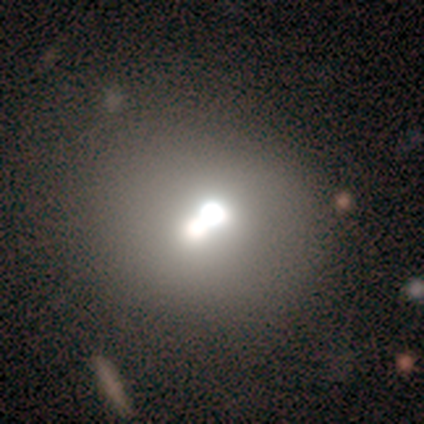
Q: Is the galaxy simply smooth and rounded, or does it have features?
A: smooth — 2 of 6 (33%, tied with featured or disk and star or artifact).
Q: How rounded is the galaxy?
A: round — 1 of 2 (50%, tied with in between).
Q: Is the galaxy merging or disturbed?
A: merger — 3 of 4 (75%).